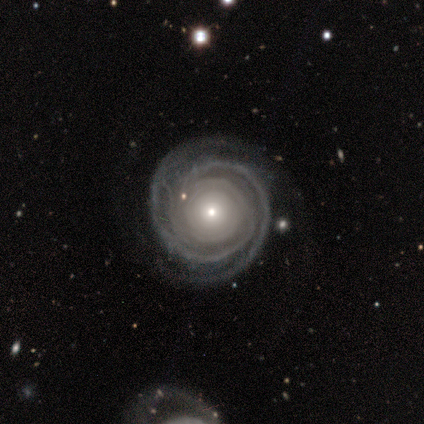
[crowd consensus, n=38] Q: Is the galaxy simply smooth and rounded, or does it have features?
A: featured or disk — 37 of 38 (97%).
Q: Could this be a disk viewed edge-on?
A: no — 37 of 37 (100%).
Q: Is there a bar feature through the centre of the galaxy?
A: no — 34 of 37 (92%).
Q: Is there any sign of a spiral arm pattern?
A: yes — 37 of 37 (100%).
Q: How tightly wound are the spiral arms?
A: tight — 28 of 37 (76%).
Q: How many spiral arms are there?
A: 2 — 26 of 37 (70%).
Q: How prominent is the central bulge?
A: small — 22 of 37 (59%).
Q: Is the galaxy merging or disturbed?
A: none — 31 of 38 (82%).